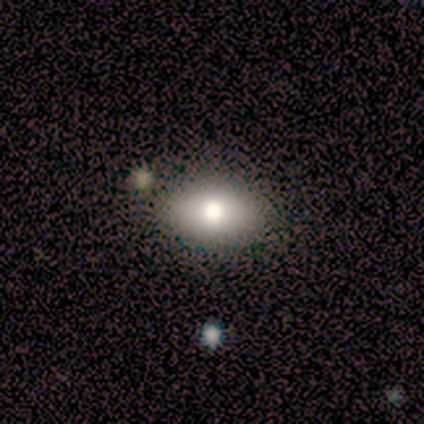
Morphology: type=smooth (100%); roundness=in between (80%); merging=none (100%).